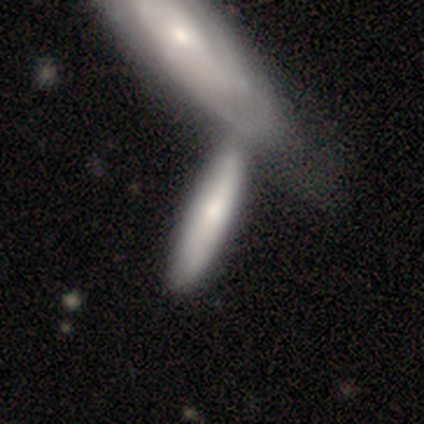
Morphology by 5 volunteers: Volunteers were most divided on "merging": merger: 50%, none: 25%, major disturbance: 25%, minor disturbance: 0%. More confident: how rounded — cigar-shaped (100%); smooth or featured — smooth (80%).